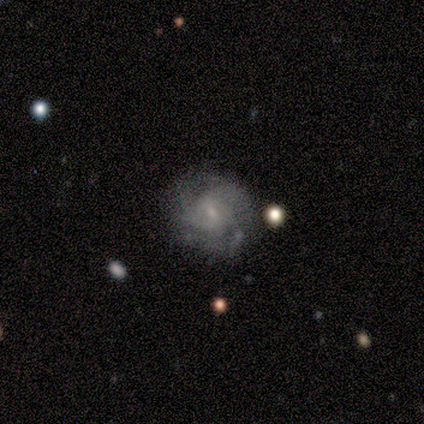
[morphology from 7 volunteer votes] Overall: featured or disk (86%). Edge-on disk: no (100%). Bar: no (67%; weak 33%). Spiral arms: yes (100%). Spiral arm count: 4 (33%, tied with can't tell). Spiral winding: tight (50%; medium 33%). Bulge size: small (100%). Merging: none (71%).